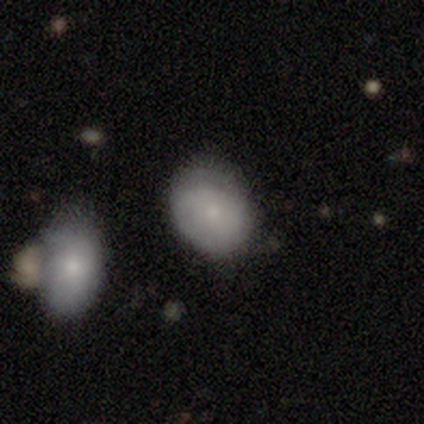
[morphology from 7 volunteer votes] A smooth galaxy with no disk features (71%) that is in between round and cigar-shaped (80%).

Vote fractions:
- Smooth or featured? smooth: 71% / featured or disk: 14% / star or artifact: 14%
- How rounded? in between: 80% / round: 20% / cigar-shaped: 0%
- Merging? minor disturbance: 67% / none: 33% / major disturbance: 0% / merger: 0%